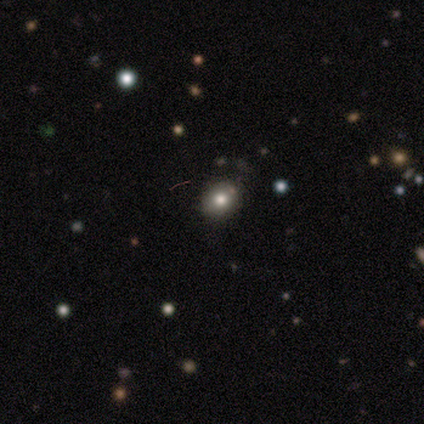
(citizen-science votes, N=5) Smooth or featured? 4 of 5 (80%) said smooth. How rounded? 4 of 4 (100%) said round. Merging? 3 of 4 (75%) said none.